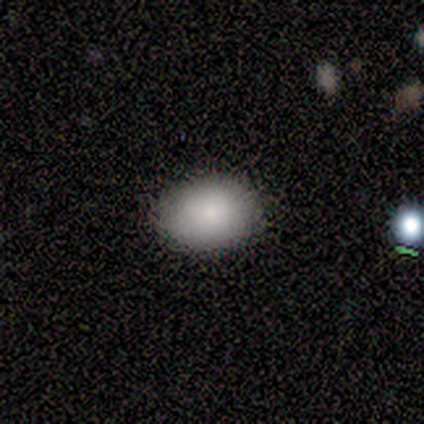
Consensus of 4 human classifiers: Overall: smooth (100%). How rounded: in between (100%). Merging: none (100%).